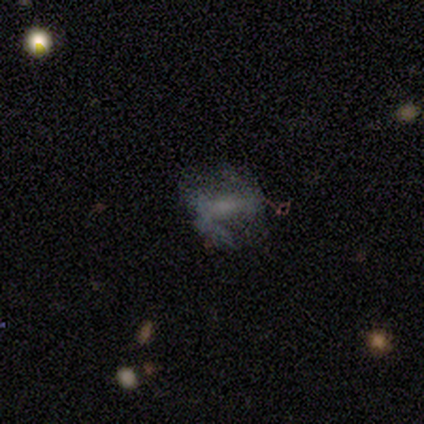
Smooth or featured? featured or disk (80%)
Edge-on disk? no (100%)
Bar? strong (50%, tied with no)
Spiral arms? yes (50%, tied with no)
Spiral winding? medium (50%, tied with loose)
Spiral arm count? 1 (50%, tied with 2)
Bulge size? none (75%)
Merging? none (40%, tied with minor disturbance)